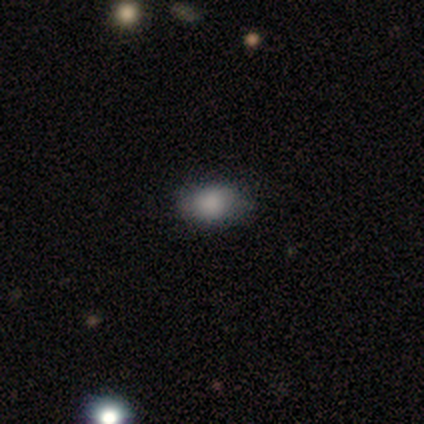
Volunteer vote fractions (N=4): Overall: smooth (75%). How rounded: in between (100%). Merging: none (100%).